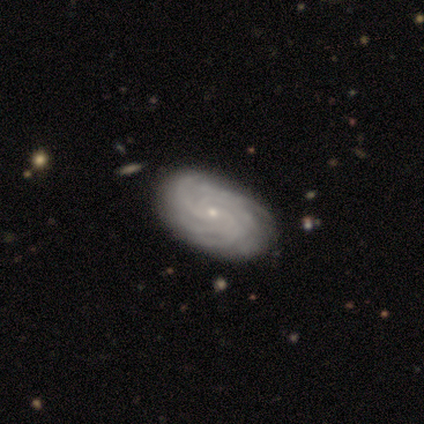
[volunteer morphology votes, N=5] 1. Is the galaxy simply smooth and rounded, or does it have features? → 80% featured or disk, 20% star or artifact, 0% smooth.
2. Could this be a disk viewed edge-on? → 100% no, 0% yes.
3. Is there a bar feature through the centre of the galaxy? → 100% no, 0% strong, 0% weak.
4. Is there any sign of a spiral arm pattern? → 100% yes, 0% no.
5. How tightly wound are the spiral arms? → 75% tight, 25% medium, 0% loose.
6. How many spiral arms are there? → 100% more than 4, 0% 1, 0% 2, 0% 3, 0% 4, 0% can't tell.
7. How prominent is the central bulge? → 100% small, 0% dominant, 0% large, 0% moderate, 0% none.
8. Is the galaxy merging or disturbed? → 75% none, 25% minor disturbance, 0% major disturbance, 0% merger.